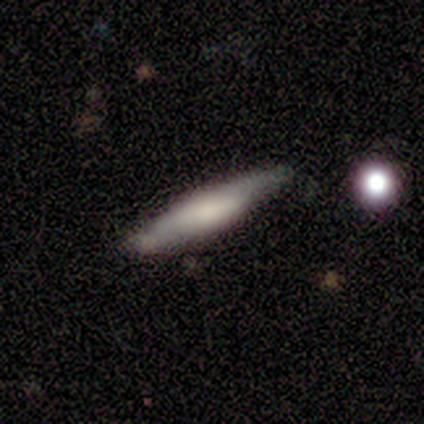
A smooth galaxy with no disk features (57%) that is cigar-shaped (75%). Merging: none (86%).